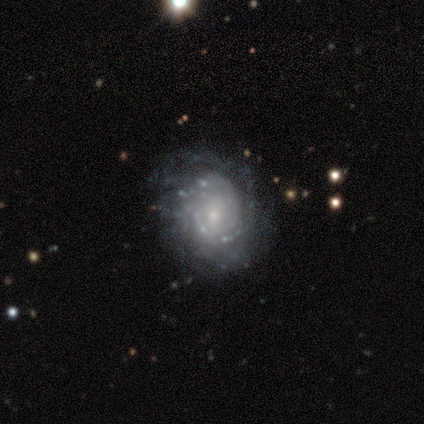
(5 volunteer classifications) featured or disk 80%, star or artifact 20%, smooth 0%. Down the decision tree: edge-on disk — no (100%); bar — weak (50%, tied with no); spiral arms — yes (100%); spiral arm count — 1 (50%, tied with can't tell); spiral winding — tight (50%, tied with loose); bulge size — small (100%); merging — none (100%).